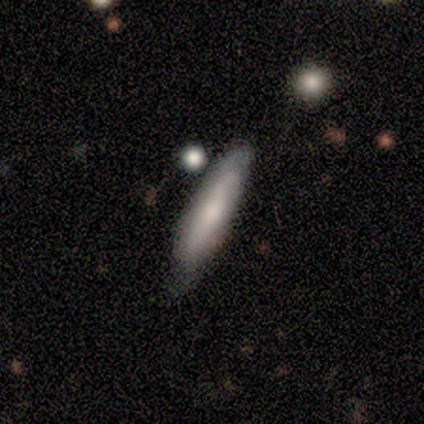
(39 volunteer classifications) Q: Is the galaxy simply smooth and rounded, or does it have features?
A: smooth — 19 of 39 (49%).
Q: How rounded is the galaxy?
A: cigar-shaped — 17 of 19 (89%).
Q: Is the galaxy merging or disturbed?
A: none — 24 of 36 (67%).